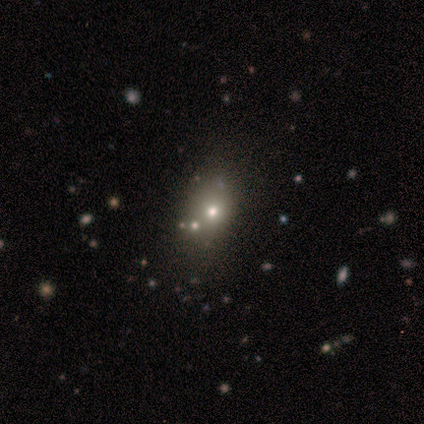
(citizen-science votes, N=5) smooth-or-featured: smooth: 60% | featured or disk: 20% | star or artifact: 20%
  how-rounded: in between: 100% | round: 0% | cigar-shaped: 0%
  merging: minor disturbance: 75% | none: 25% | major disturbance: 0% | merger: 0%